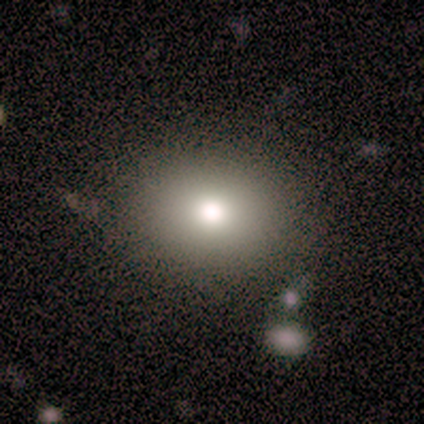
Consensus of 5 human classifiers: Smooth or featured? smooth (80%)
How rounded? round (75%)
Merging? none (100%)